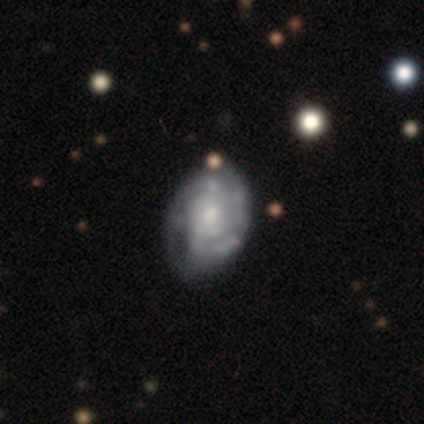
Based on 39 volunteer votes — Smooth or featured? featured or disk (90%)
Edge-on disk? no (100%)
Bar? no (66%)
Spiral arms? yes (97%)
Spiral winding? tight (76%)
Spiral arm count? 2 (41%, tied with can't tell)
Bulge size? moderate (43%)
Merging? minor disturbance (29%)